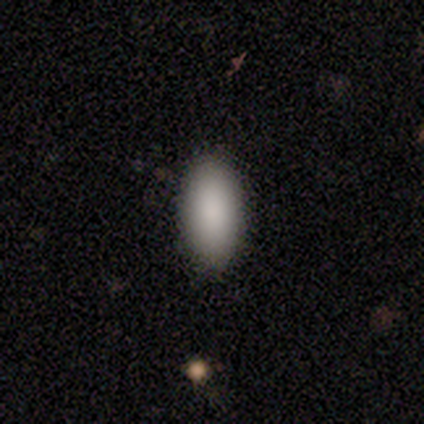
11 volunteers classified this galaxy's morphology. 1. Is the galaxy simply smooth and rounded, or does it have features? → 73% smooth, 18% featured or disk, 9% star or artifact.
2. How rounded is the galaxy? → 62% in between, 25% cigar-shaped, 12% round.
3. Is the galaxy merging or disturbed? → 90% none, 10% minor disturbance, 0% major disturbance, 0% merger.